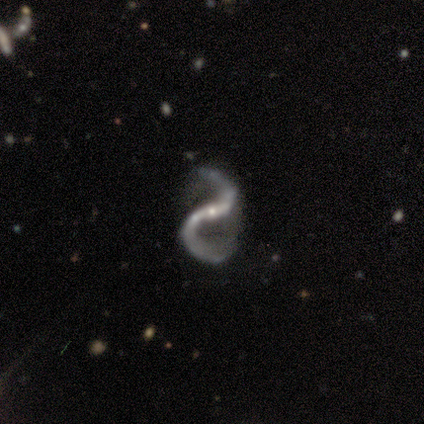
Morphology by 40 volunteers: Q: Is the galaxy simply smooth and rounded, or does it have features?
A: featured or disk — 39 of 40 (98%).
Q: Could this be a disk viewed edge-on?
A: no — 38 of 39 (97%).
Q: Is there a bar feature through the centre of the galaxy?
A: strong — 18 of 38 (47%).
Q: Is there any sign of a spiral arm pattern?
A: yes — 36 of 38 (95%).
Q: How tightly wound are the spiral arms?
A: loose — 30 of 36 (83%).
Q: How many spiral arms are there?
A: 2 — 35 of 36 (97%).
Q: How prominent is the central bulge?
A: small — 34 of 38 (89%).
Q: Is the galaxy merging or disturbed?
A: none — 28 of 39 (72%).